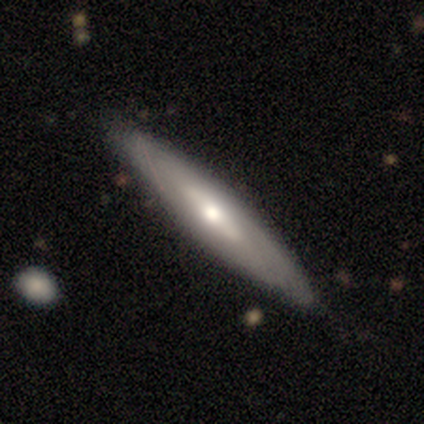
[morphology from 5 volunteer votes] smooth 60%, featured or disk 40%, star or artifact 0%. Down the decision tree: how rounded — cigar-shaped (100%); merging — none (100%).